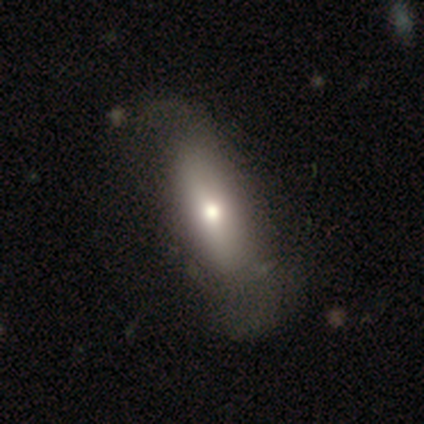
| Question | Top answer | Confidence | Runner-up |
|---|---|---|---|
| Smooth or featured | smooth | 67% | star or artifact (33%) |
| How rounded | cigar-shaped | 75% | in between (25%) |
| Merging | none | 100% | — |